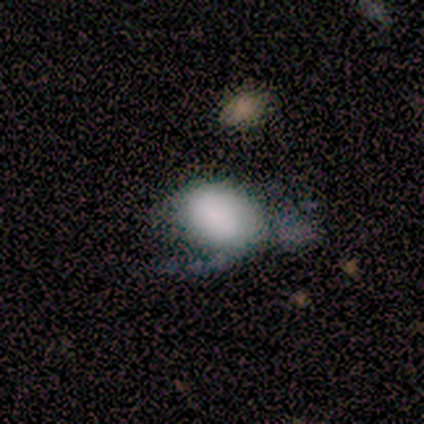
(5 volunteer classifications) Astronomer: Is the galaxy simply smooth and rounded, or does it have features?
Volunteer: smooth — 40%, tied with star or artifact at 40%.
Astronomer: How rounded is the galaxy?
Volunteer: in between — 100%.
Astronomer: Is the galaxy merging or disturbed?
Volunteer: none — 67%.